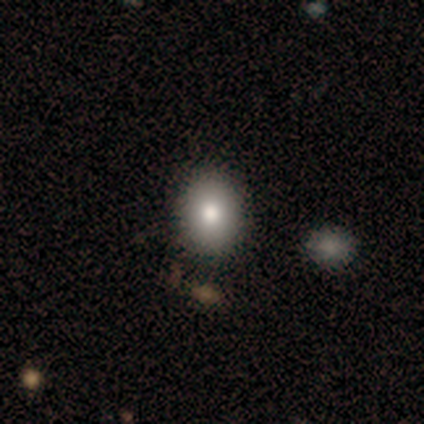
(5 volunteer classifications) This appears to be a smooth galaxy with no disk features (100%) that is in between round and cigar-shaped (60%). Merging: none (80%).